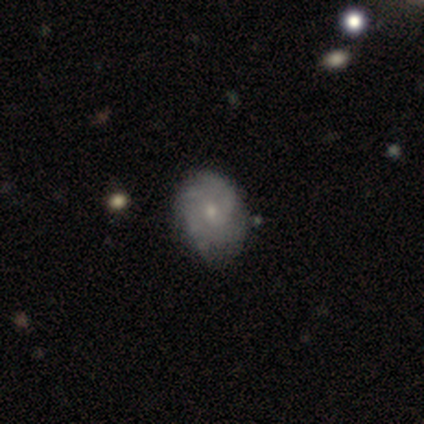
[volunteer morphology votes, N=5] A featured or disk galaxy (60%) with no bar (67%), 3 (67%) medium (67%) spiral arms (100%) and a small central bulge (67%). Merging: none (60%).